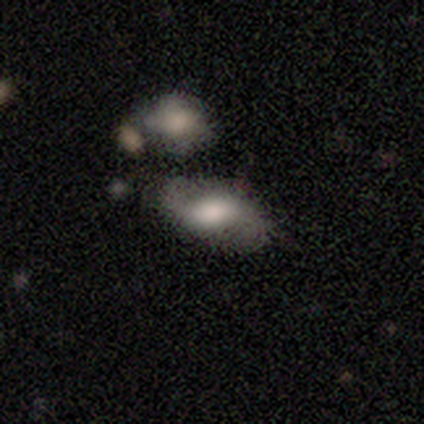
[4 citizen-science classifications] Overall: smooth (50%, tied with featured or disk). How rounded: in between (100%). Merging: none (75%).